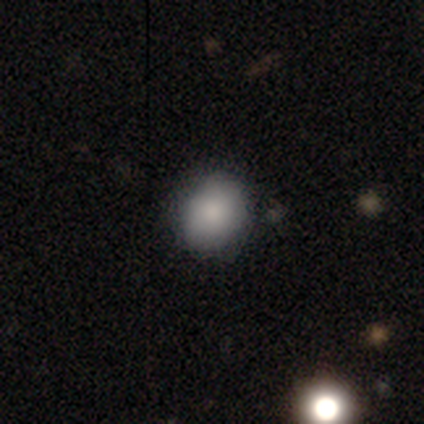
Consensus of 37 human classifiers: smooth 92%, star or artifact 5%, featured or disk 3%. Down the decision tree: how rounded — round (79%); merging — none (91%).